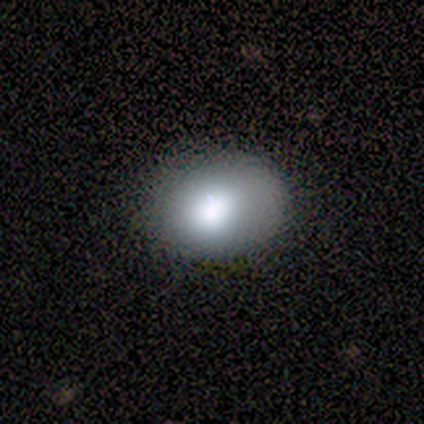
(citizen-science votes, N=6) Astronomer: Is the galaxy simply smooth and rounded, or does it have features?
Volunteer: smooth — 100%.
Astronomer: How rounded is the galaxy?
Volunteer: in between — 67%.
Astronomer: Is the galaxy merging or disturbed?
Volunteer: none — 100%.